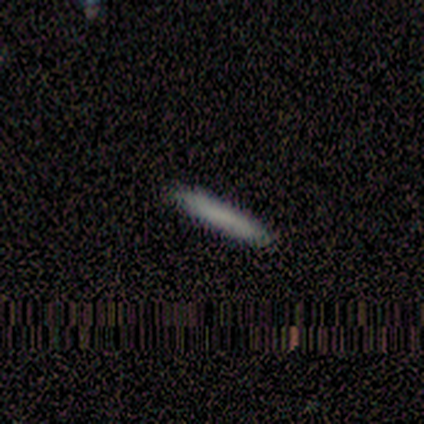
Overall: smooth (80%). How rounded: cigar-shaped (100%). Merging: none (100%).